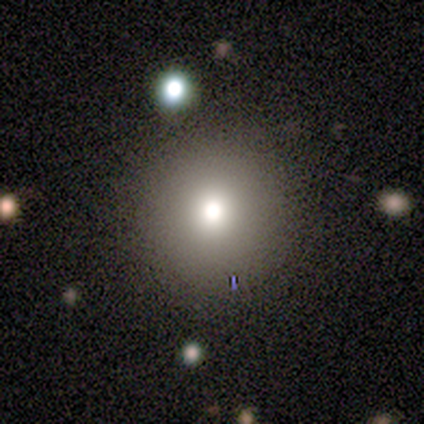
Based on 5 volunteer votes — A smooth galaxy with no disk features (40%, tied with featured or disk) that is round (100%).

Vote fractions:
- Smooth or featured? smooth: 40% (tied) / featured or disk: 40% (tied) / star or artifact: 20%
- How rounded? round: 100% / in between: 0% / cigar-shaped: 0%
- Merging? none: 100% / minor disturbance: 0% / major disturbance: 0% / merger: 0%